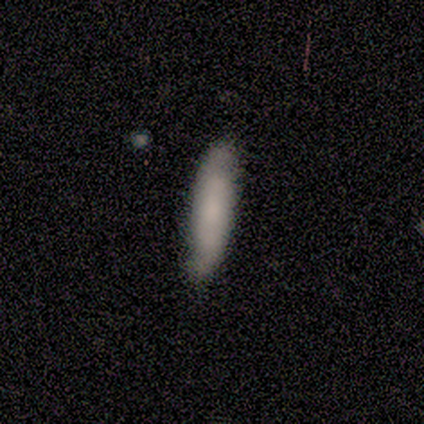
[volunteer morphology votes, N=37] type=smooth (70%); roundness=cigar-shaped (77%); merging=none (51%).